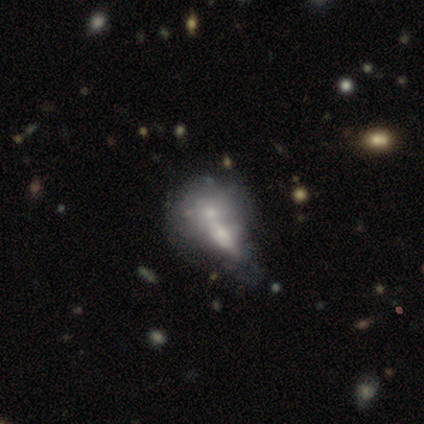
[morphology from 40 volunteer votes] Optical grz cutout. It shows a smooth galaxy with no disk features (52%) that is in between round and cigar-shaped (62%). Merging: merger (56%).